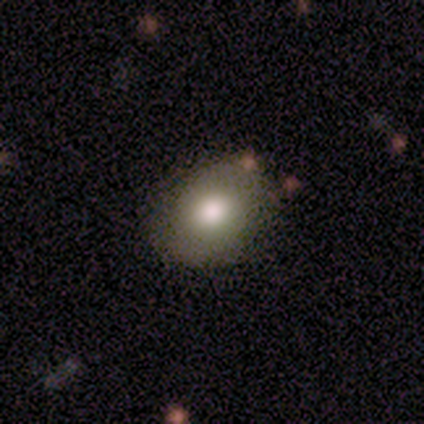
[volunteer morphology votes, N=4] Volunteers were most divided on "smooth or featured": smooth: 75%, featured or disk: 25%, star or artifact: 0%. More confident: how rounded — in between (100%); merging — none (100%).